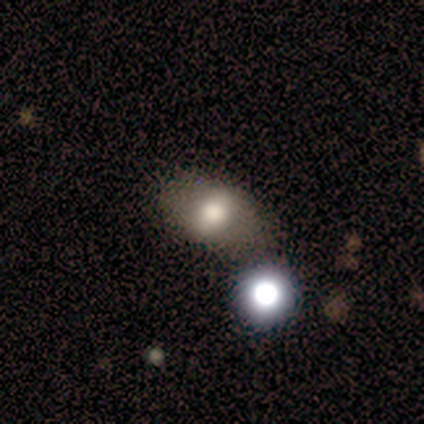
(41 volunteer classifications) A smooth galaxy with no disk features (68%) that is in between round and cigar-shaped (71%). Merging: none (59%).